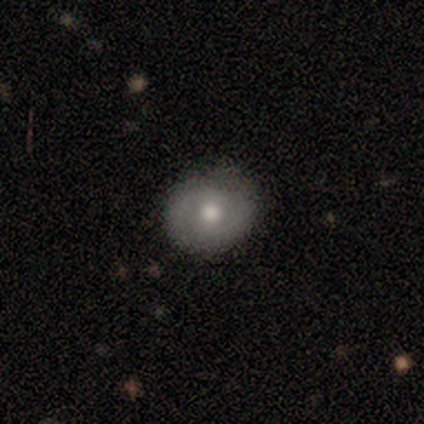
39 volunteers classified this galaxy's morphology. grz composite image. It shows a featured or disk galaxy (54%) with no bar (55%), 2 (80%) tight (53%) spiral arms (75%) and a moderate central bulge (70%). Merging: none (76%).